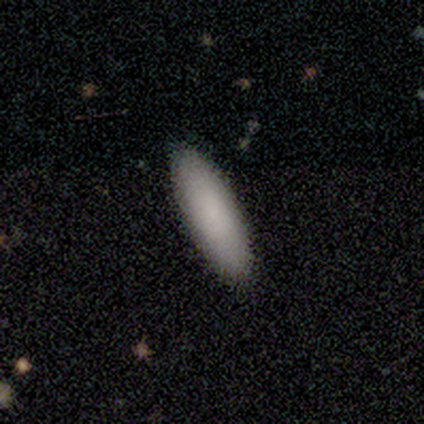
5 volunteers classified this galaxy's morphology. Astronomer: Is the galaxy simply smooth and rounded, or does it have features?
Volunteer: smooth — 60%.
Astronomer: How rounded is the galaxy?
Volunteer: cigar-shaped — 67%.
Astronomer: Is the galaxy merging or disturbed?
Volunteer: none — 100%.